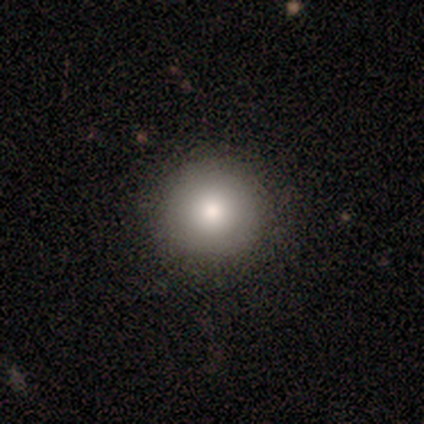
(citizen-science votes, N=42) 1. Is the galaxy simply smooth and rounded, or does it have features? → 86% smooth, 7% featured or disk, 7% star or artifact.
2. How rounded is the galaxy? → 100% round, 0% in between, 0% cigar-shaped.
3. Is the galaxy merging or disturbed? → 95% none, 3% minor disturbance, 3% merger, 0% major disturbance.